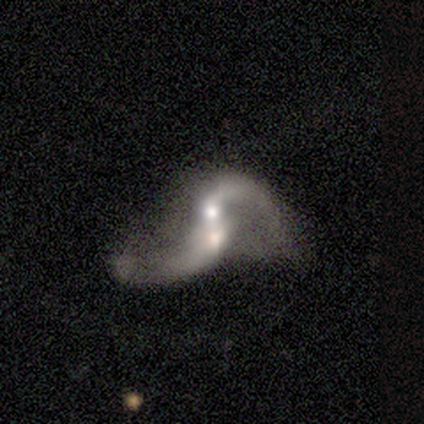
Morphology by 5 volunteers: Volunteers were most divided on "spiral arm count" (2-way tie): 1: 50%, 2: 50%, 3: 0%, 4: 0%, more than 4: 0%, can't tell: 0%. More confident: smooth or featured — featured or disk (100%); edge-on disk — no (100%); bar — no (80%); spiral arms — yes (80%); merging — merger (80%); spiral winding — loose (75%); bulge size — moderate (60%).